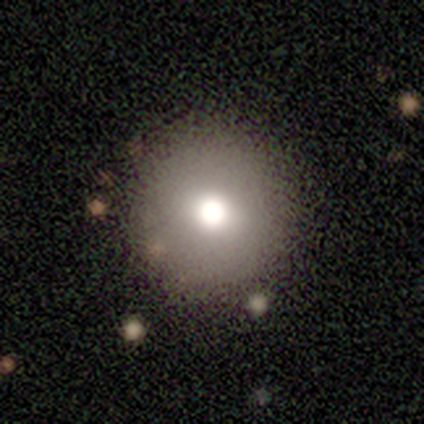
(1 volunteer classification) Overall: smooth (100%). How rounded: round (100%). Merging: none (100%).